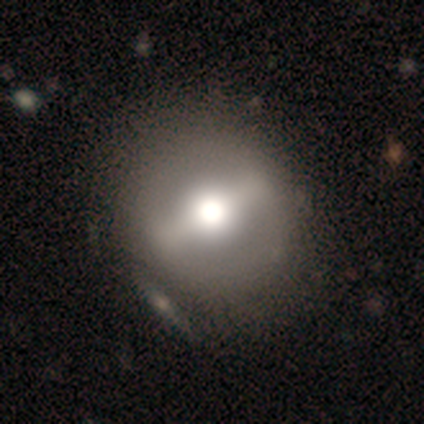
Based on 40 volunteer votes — Q: Smooth or featured?
A: featured or disk (65%); runner-up: smooth (28%)
Q: Edge-on disk?
A: no (92%); runner-up: yes (8%)
Q: Bar?
A: strong (88%); runner-up: weak (12%)
Q: Spiral arms?
A: no (88%); runner-up: yes (12%)
Q: Bulge size?
A: moderate (54%); runner-up: large (25%)
Q: Merging?
A: none (57%); runner-up: minor disturbance (14%)